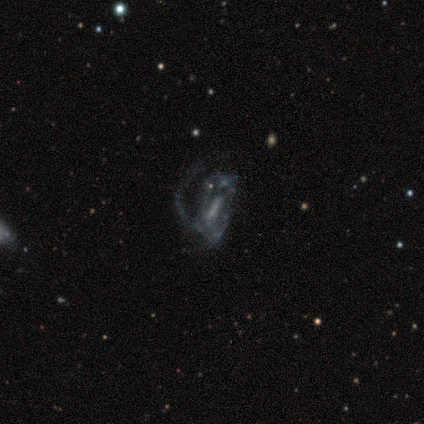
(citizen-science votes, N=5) This appears to be a featured or disk galaxy (80%) with a weak bar (75%), 1 (100%) medium (50%, tied with loose) spiral arms (50%, tied with no) and no central bulge (75%). Merging: major disturbance (75%).